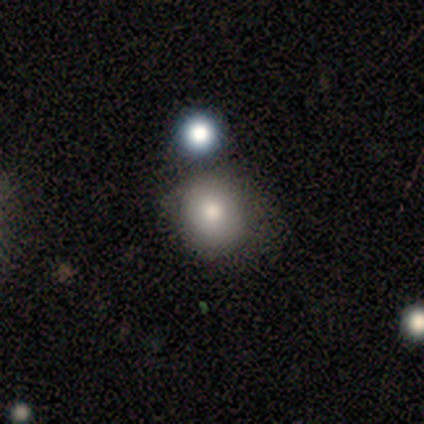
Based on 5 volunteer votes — Overall: smooth (80%). How rounded: round (100%). Merging: none (75%).